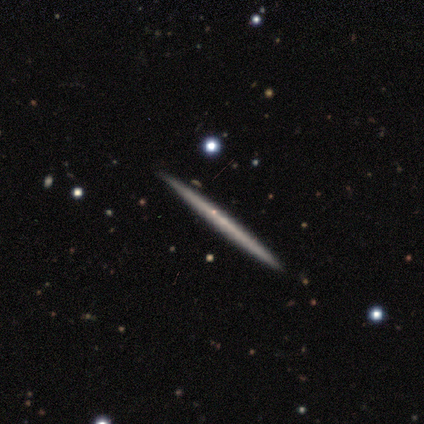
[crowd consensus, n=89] Morphology: type=featured or disk (52%); edge-on=yes (98%); edge-on bulge=none (96%); merging=none (87%).